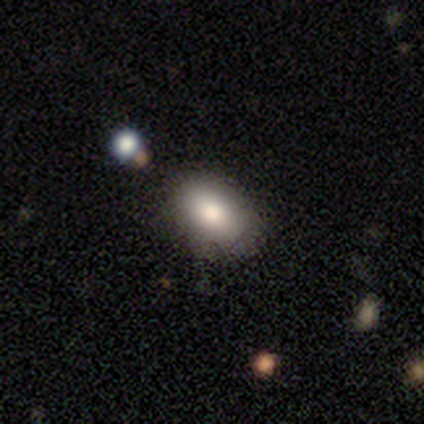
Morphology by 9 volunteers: smooth_or_featured: smooth (p=0.89) [alt: featured or disk p=0.11]
how_rounded: in between (p=1.00)
merging: none (p=0.89) [alt: minor disturbance p=0.11]